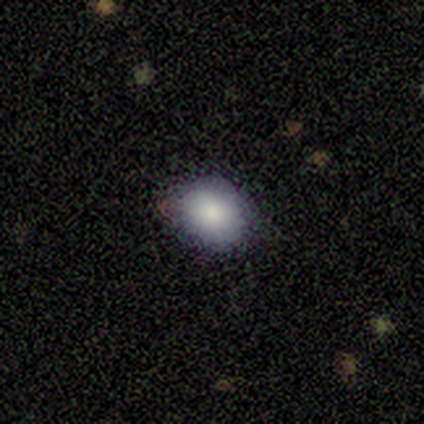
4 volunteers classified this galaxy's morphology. type=smooth (75%); roundness=round (67%); merging=none (100%).